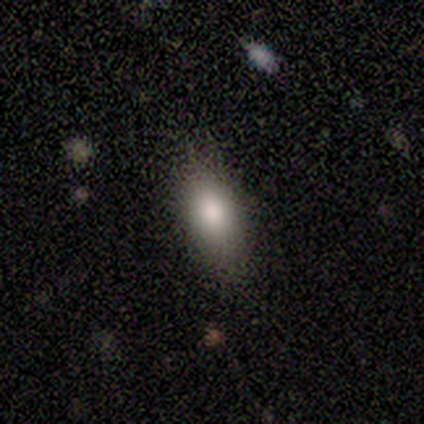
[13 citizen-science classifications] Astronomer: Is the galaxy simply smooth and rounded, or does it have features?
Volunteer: smooth — 77%.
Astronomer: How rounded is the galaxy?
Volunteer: in between — 60%.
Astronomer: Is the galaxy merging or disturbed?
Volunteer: none — 100%.